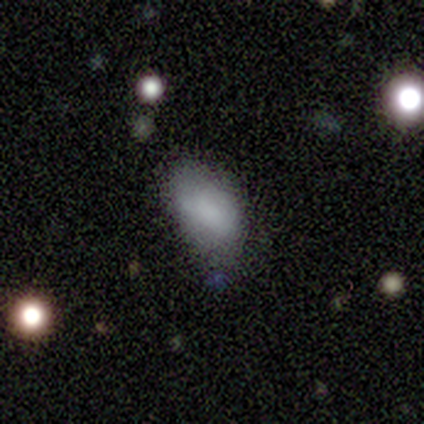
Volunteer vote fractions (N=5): This appears to be a smooth galaxy with no disk features (80%) that is in between round and cigar-shaped (100%). Merging: none (50%, tied with minor disturbance).